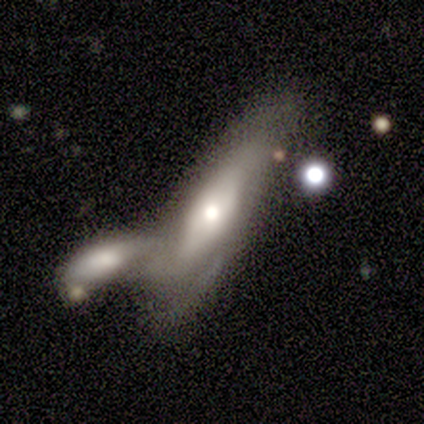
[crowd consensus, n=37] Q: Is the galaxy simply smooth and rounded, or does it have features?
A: featured or disk — 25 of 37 (68%).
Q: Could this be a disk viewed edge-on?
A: no — 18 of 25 (72%).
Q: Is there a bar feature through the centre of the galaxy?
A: no — 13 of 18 (72%).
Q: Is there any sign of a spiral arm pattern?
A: yes — 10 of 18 (56%).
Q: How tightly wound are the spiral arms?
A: medium — 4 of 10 (40%, tied with loose).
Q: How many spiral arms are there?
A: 2 — 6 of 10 (60%).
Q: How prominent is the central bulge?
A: moderate — 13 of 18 (72%).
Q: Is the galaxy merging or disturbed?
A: merger — 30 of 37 (81%).